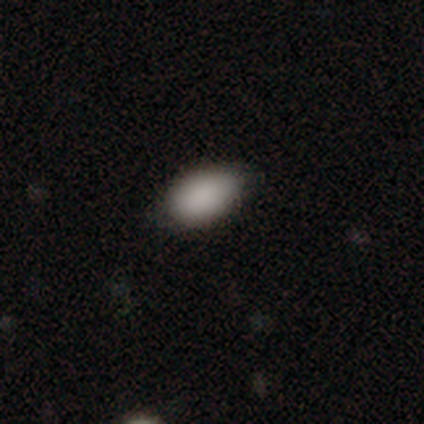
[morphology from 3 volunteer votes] smooth-or-featured: smooth: 100% | featured or disk: 0% | star or artifact: 0%
  how-rounded: in between: 100% | round: 0% | cigar-shaped: 0%
  merging: none: 100% | minor disturbance: 0% | major disturbance: 0% | merger: 0%